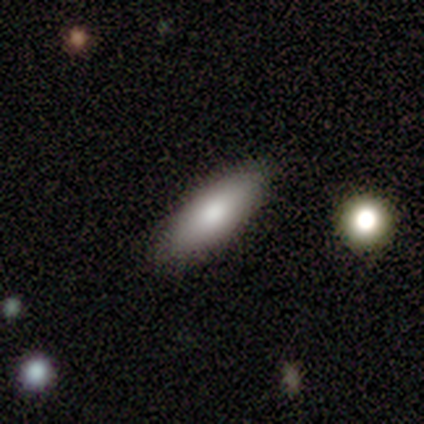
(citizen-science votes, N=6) Smooth or featured: smooth — 67% (featured or disk — 33%)
How rounded: in between — 75% (cigar-shaped — 25%)
Merging: none — 100%